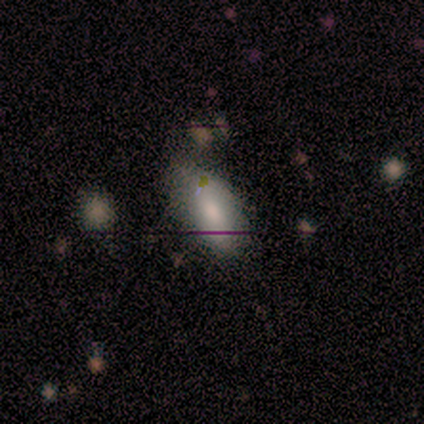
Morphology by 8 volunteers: smooth-or-featured: smooth: 100% | featured or disk: 0% | star or artifact: 0%
  how-rounded: in between: 88% | cigar-shaped: 12% | round: 0%
  merging: none: 62% | minor disturbance: 38% | major disturbance: 0% | merger: 0%